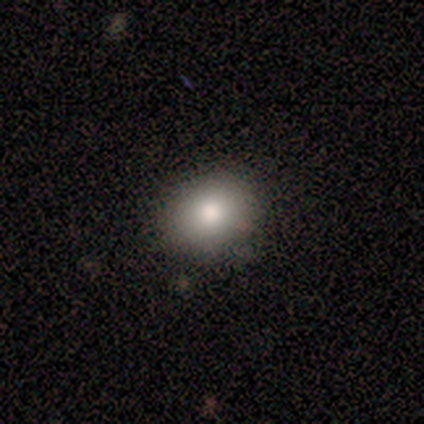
Q: Smooth or featured?
A: smooth (75%); runner-up: star or artifact (25%)
Q: How rounded?
A: round (67%); runner-up: in between (33%)
Q: Merging?
A: none (100%)